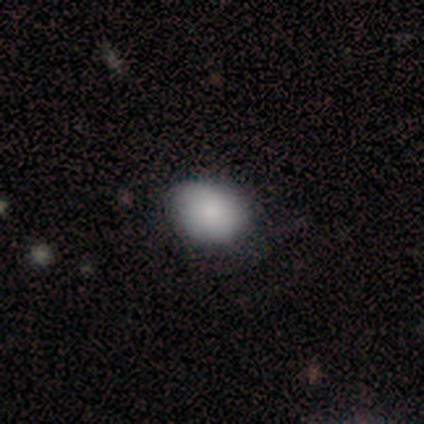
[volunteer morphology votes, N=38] Q: Smooth or featured?
A: smooth (87%); runner-up: featured or disk (8%)
Q: How rounded?
A: in between (70%); runner-up: round (30%)
Q: Merging?
A: none (67%); runner-up: minor disturbance (14%)